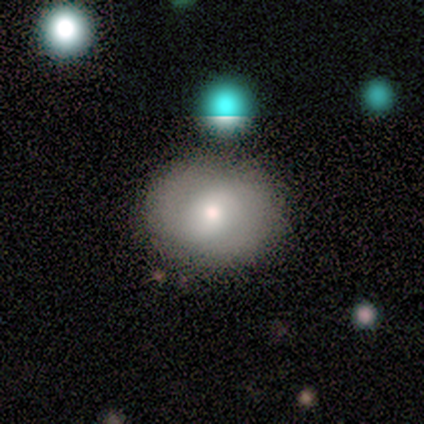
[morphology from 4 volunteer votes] Smooth or featured: smooth — 50% (tied with featured or disk — 50%)
How rounded: round — 50% (tied with in between — 50%)
Merging: none — 75% (major disturbance — 25%)